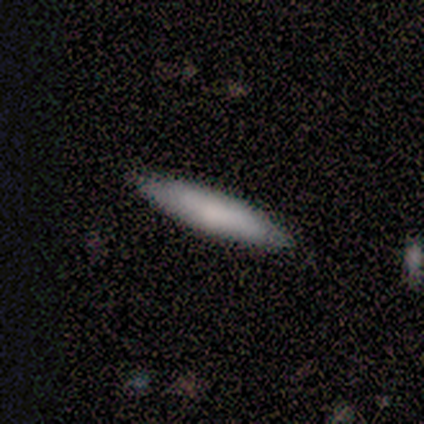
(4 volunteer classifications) smooth 75%, featured or disk 25%, star or artifact 0%. Down the decision tree: how rounded — cigar-shaped (100%); merging — none (100%).